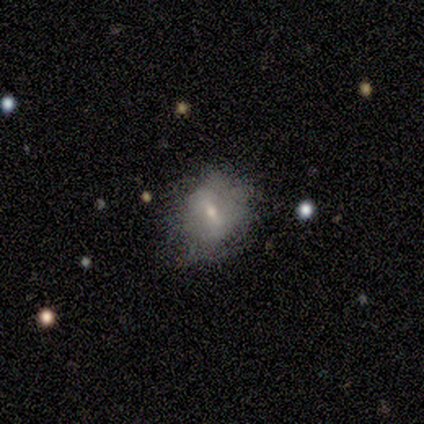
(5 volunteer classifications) Smooth or featured? smooth (60%)
How rounded? round (67%)
Merging? none (100%)